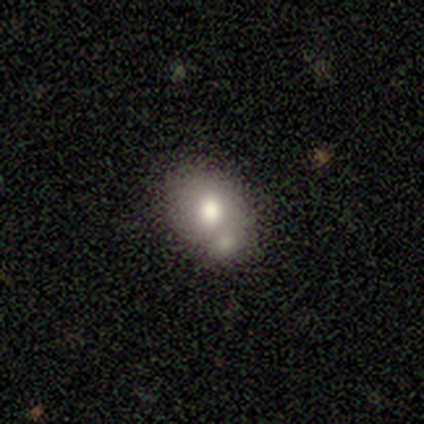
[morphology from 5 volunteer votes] smooth-or-featured: smooth: 80% | star or artifact: 20% | featured or disk: 0%
  how-rounded: round: 50% (tied) | in between: 50% (tied) | cigar-shaped: 0%
  merging: merger: 75% | minor disturbance: 25% | none: 0% | major disturbance: 0%